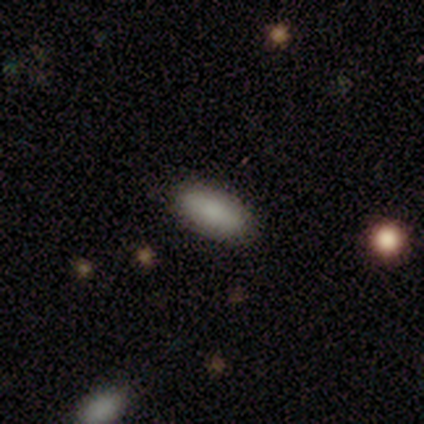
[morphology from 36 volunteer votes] Smooth or featured? smooth (86%)
How rounded? in between (84%)
Merging? none (85%)